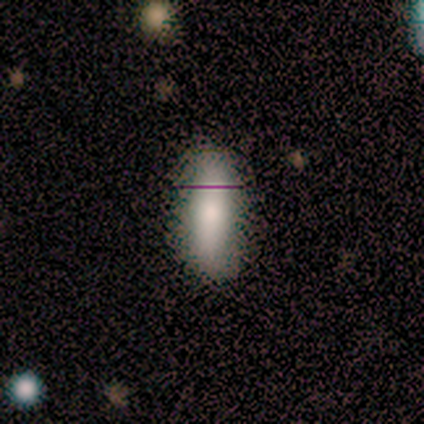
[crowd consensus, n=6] Volunteers were most divided on "smooth or featured" (2-way tie): smooth: 50%, featured or disk: 50%, star or artifact: 0%. More confident: merging — none (83%); how rounded — cigar-shaped (67%).